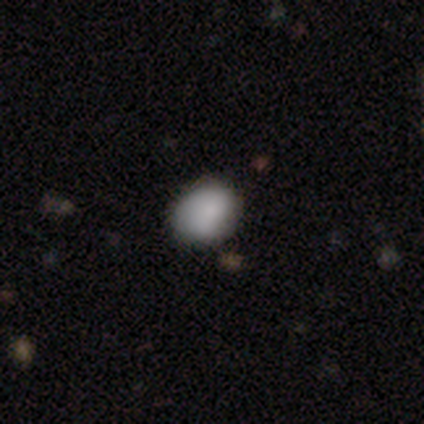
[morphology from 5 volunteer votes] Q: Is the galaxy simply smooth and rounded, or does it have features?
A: smooth — 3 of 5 (60%).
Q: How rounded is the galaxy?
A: in between — 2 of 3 (67%).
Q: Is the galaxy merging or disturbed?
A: none — 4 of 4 (100%).